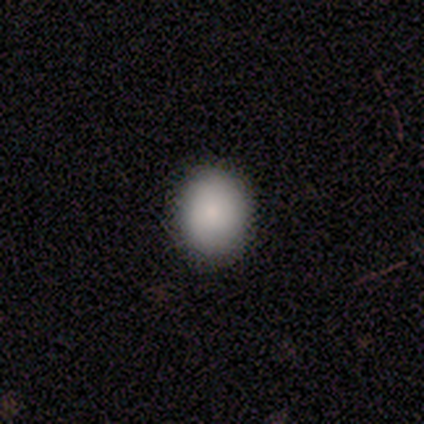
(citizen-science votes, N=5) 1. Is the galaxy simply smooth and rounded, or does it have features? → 80% smooth, 20% star or artifact, 0% featured or disk.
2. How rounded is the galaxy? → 50% round (tied), 50% in between (tied), 0% cigar-shaped.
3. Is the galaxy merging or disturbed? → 100% none, 0% minor disturbance, 0% major disturbance, 0% merger.